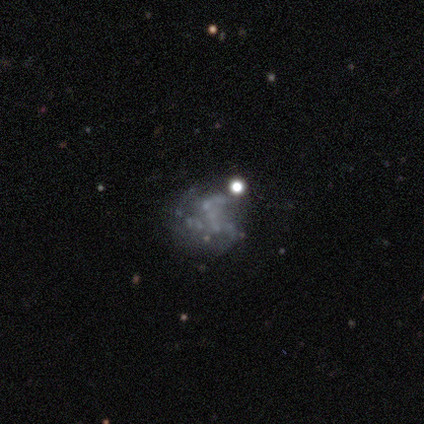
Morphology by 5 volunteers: Smooth or featured?
  - featured or disk: 100% *
  - smooth: 0%
  - star or artifact: 0%
Edge-on disk?
  - no: 100% *
  - yes: 0%
Bar?
  - no: 100% *
  - strong: 0%
  - weak: 0%
Spiral arms?
  - no: 100% *
  - yes: 0%
Bulge size?
  - none: 100% *
  - dominant: 0%
  - large: 0%
  - moderate: 0%
  - small: 0%
Merging?
  - none: 80% *
  - major disturbance: 20%
  - minor disturbance: 0%
  - merger: 0%